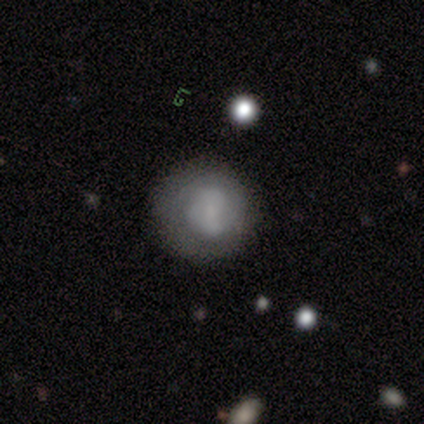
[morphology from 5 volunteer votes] This appears to be a smooth galaxy with no disk features (60%) that is round (100%). Merging: none (60%).